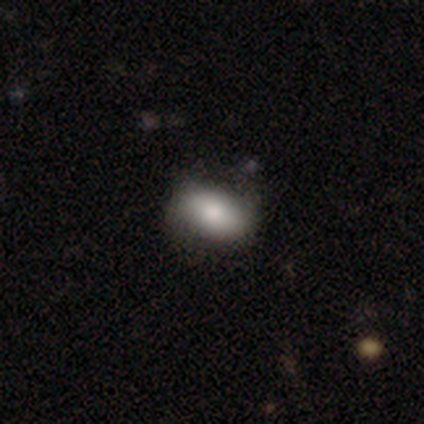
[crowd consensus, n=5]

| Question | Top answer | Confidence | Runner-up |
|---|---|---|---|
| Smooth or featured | smooth | 80% | featured or disk (20%) |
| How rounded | in between | 75% | round (25%) |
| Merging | none | 60% | minor disturbance (40%) |